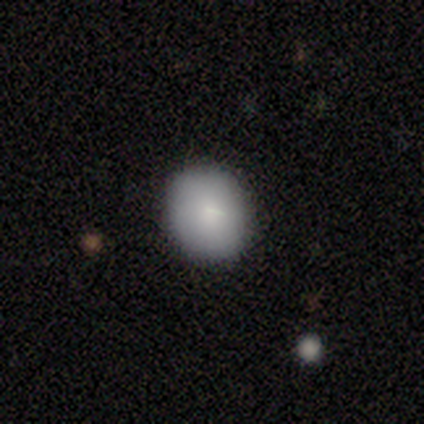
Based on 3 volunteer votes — This is clearly a smooth galaxy (100%). How rounded: likely round (67%). Merging: clearly none (100%).